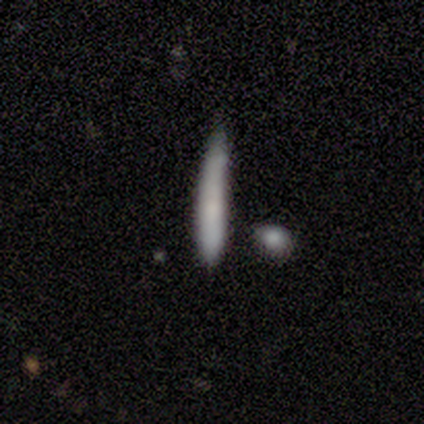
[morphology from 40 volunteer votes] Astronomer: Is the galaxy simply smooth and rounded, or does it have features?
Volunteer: smooth — 65%.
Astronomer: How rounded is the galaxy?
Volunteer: cigar-shaped — 100%.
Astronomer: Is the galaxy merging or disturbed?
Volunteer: none — 59%.